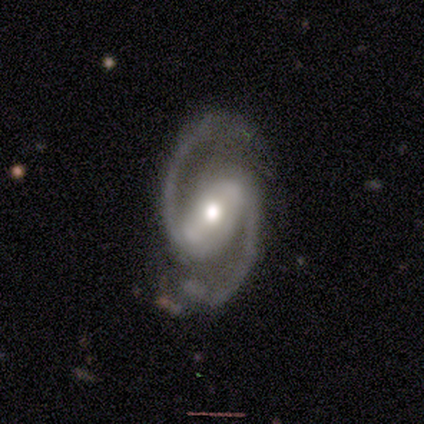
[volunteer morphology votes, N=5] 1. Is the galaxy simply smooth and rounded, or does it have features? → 100% featured or disk, 0% smooth, 0% star or artifact.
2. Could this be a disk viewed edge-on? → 100% no, 0% yes.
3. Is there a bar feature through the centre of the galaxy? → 80% strong, 20% weak, 0% no.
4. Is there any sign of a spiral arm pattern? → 100% yes, 0% no.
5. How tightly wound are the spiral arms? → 60% medium, 40% loose, 0% tight.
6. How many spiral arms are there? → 100% 2, 0% 1, 0% 3, 0% 4, 0% more than 4, 0% can't tell.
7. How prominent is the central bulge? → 40% large (tied), 40% moderate (tied), 20% small, 0% dominant, 0% none.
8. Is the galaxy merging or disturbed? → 60% none, 40% minor disturbance, 0% major disturbance, 0% merger.